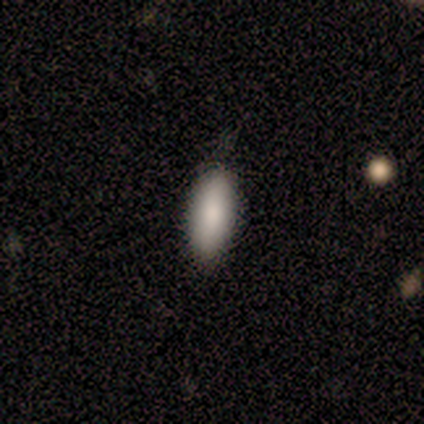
A smooth galaxy with no disk features (80%) that is in between round and cigar-shaped (75%).

Vote fractions:
- Smooth or featured? smooth: 80% / featured or disk: 20% / star or artifact: 0%
- How rounded? in between: 75% / cigar-shaped: 25% / round: 0%
- Merging? none: 100% / minor disturbance: 0% / major disturbance: 0% / merger: 0%